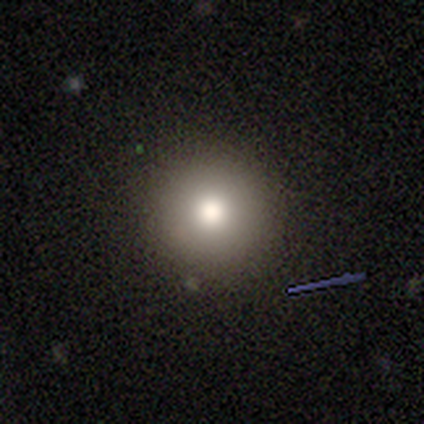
Overall: smooth (100%). How rounded: round (100%). Merging: none (80%).